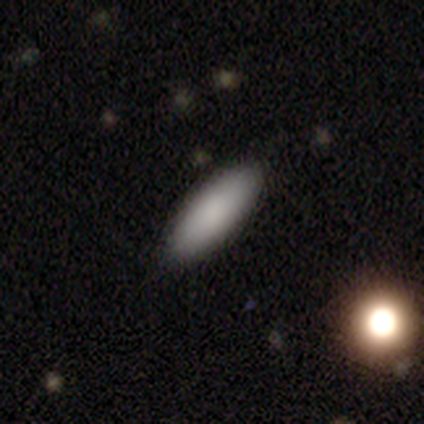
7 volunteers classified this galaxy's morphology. A smooth galaxy with no disk features (100%) that is in between round and cigar-shaped (57%).

Vote fractions:
- Smooth or featured? smooth: 100% / featured or disk: 0% / star or artifact: 0%
- How rounded? in between: 57% / cigar-shaped: 43% / round: 0%
- Merging? none: 71% / minor disturbance: 29% / major disturbance: 0% / merger: 0%